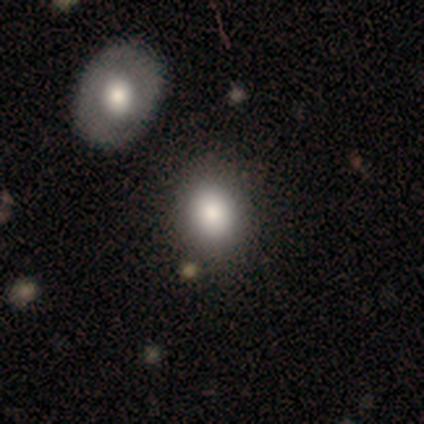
A smooth galaxy with no disk features (88%) that is round (54%).

Vote fractions:
- Smooth or featured? smooth: 88% / star or artifact: 8% / featured or disk: 5%
- How rounded? round: 54% / in between: 46% / cigar-shaped: 0%
- Merging? none: 70% / minor disturbance: 5% / merger: 5% / major disturbance: 0%